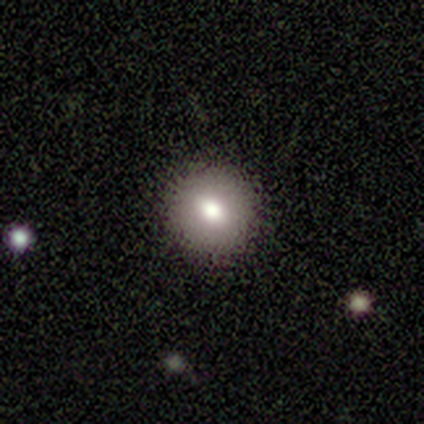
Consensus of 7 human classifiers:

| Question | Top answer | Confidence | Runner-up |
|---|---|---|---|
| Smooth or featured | smooth | 86% | featured or disk (14%) |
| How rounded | round | 83% | in between (17%) |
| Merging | none | 86% | minor disturbance (14%) |